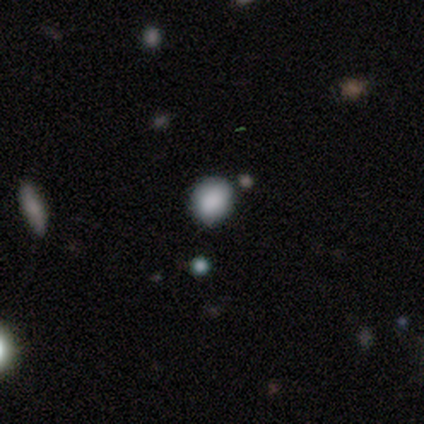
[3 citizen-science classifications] This appears to be a smooth galaxy with no disk features (100%) that is in between round and cigar-shaped (67%). Merging: minor disturbance (67%).